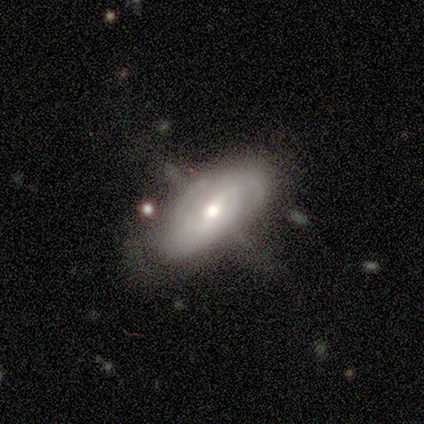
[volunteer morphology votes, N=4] This is likely a featured or disk galaxy (75%). It is clearly not viewed edge-on (100%). Bar: clearly no (100%). Spiral arm pattern: likely yes (67%). Spiral arm count: clearly can't tell (100%). Spiral winding: clearly medium (100%). Central bulge: clearly small (100%). Merging: possibly none (50%, tied with minor disturbance).